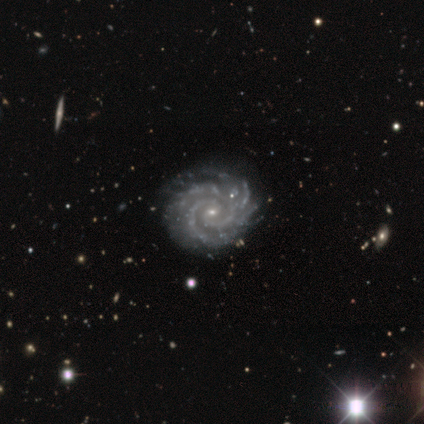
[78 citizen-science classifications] This is clearly a featured or disk galaxy (97%). It is clearly not viewed edge-on (97%). Bar: likely no (66%). Spiral arm pattern: clearly yes (100%). Spiral arm count: marginally 2 (39%). Spiral winding: clearly tight (85%). Central bulge: clearly small (82%). Merging: marginally none (39%).